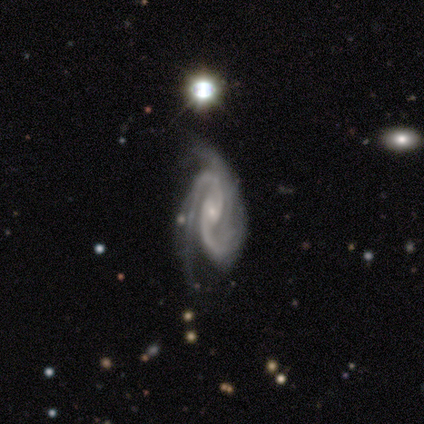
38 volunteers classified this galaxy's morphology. Smooth or featured: featured or disk — 100%
Edge-on disk: no — 100%
Bar: no — 58% (weak — 37%)
Spiral arms: yes — 100%
Spiral winding: medium — 50% (tight — 42%)
Spiral arm count: 2 — 74% (3 — 21%)
Bulge size: small — 74% (moderate — 21%)
Merging: none — 37% (major disturbance — 21%)